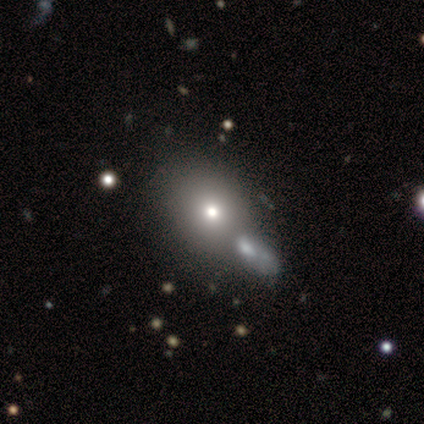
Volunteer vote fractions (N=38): Morphology: type=smooth (63%); roundness=round (50%); merging=merger (53%).